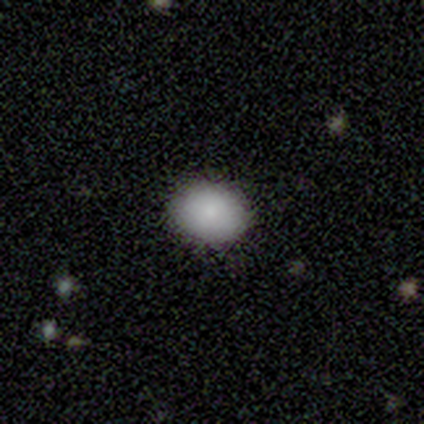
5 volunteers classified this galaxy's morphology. smooth-or-featured: smooth: 80% | featured or disk: 20% | star or artifact: 0%
  how-rounded: round: 75% | in between: 25% | cigar-shaped: 0%
  merging: none: 60% | minor disturbance: 20% | major disturbance: 20% | merger: 0%